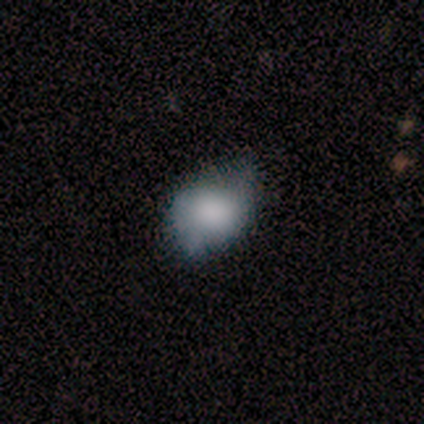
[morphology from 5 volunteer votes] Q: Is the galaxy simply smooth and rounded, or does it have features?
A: smooth — 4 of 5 (80%).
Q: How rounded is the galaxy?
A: in between — 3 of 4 (75%).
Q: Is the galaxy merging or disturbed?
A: none — 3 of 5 (60%).